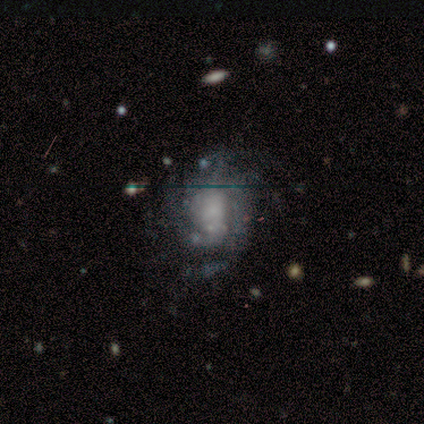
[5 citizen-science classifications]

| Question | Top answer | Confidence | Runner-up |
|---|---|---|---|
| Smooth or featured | featured or disk | 80% | smooth (20%) |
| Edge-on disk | no | 100% | — |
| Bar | no | 100% | — |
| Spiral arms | yes | 100% | — |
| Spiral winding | medium | 75% | tight (25%) |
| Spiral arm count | can't tell | 50% | 4 (25%) |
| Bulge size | large | 50% | moderate (25%) |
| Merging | none | 60% | minor disturbance (20%) |